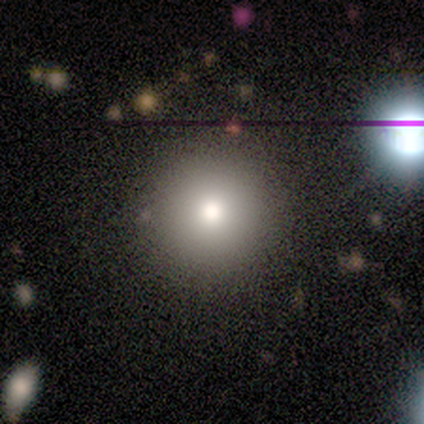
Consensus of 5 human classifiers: Overall: smooth (80%). How rounded: round (100%). Merging: none (100%).